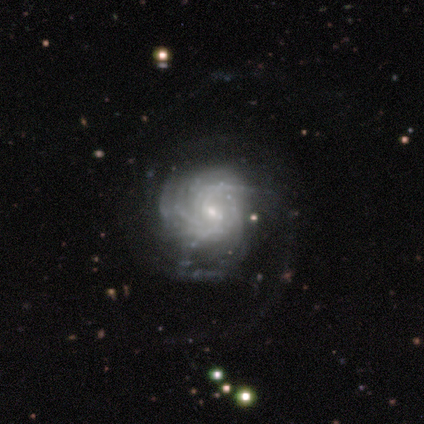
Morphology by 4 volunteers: Q: Smooth or featured?
A: featured or disk (75%); runner-up: star or artifact (25%)
Q: Edge-on disk?
A: no (100%)
Q: Bar?
A: no (67%); runner-up: weak (33%)
Q: Spiral arms?
A: yes (100%)
Q: Spiral winding?
A: tight (67%); runner-up: medium (33%)
Q: Spiral arm count?
A: 1 (33%); tied with: 2 (33%); can't tell (33%)
Q: Bulge size?
A: small (100%)
Q: Merging?
A: none (100%)